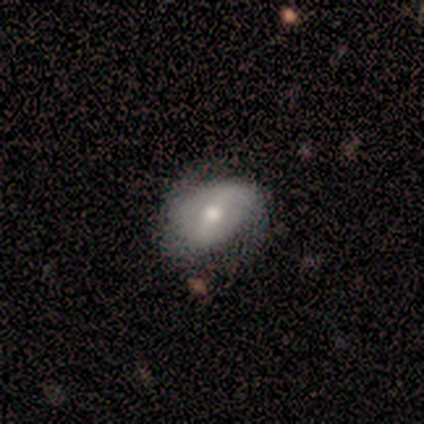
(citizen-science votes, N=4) This is likely a featured or disk galaxy (75%). It is clearly not viewed edge-on (100%). Bar: likely strong (67%). Spiral arm pattern: likely yes (67%). Spiral arm count: clearly 2 (100%). Spiral winding: possibly tight (50%, tied with loose). Central bulge: clearly moderate (100%). Merging: possibly none (50%, tied with minor disturbance).